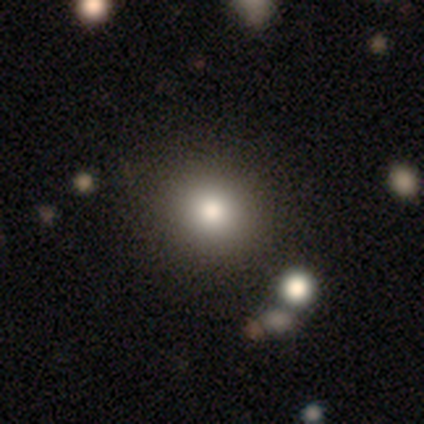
Overall: smooth (83%). How rounded: round (100%). Merging: none (60%; minor disturbance 40%).